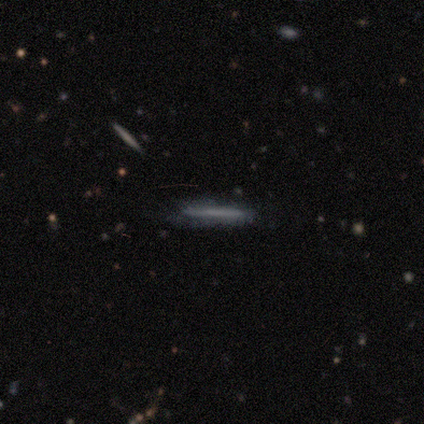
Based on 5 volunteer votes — Volunteers were most divided on "edge-on bulge" (2-way tie): none: 50%, rounded: 50%, boxy: 0%. More confident: merging — none (100%); edge-on disk — yes (67%); smooth or featured — featured or disk (60%).